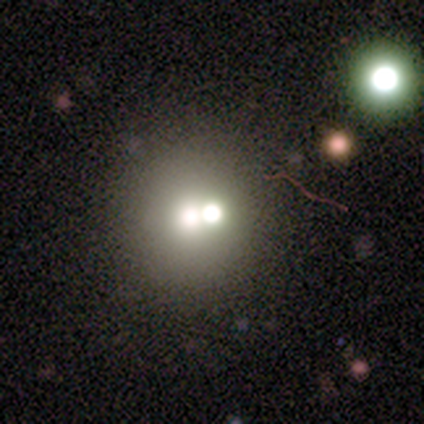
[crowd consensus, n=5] smooth_or_featured: smooth (p=0.60) [alt: featured or disk p=0.40]
how_rounded: round (p=1.00)
merging: merger (p=0.60) [alt: none p=0.40]